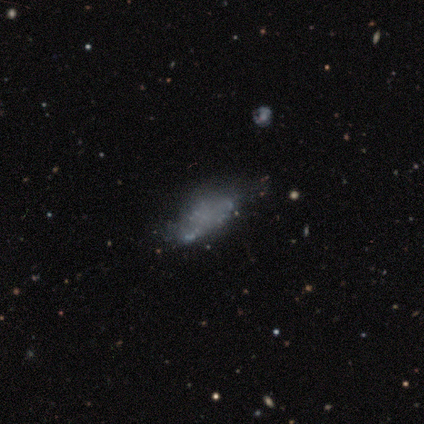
This appears to be a featured or disk galaxy (60%) with no bar (100%), no spiral arms (100%) and no central bulge (100%). Merging: major disturbance (60%).